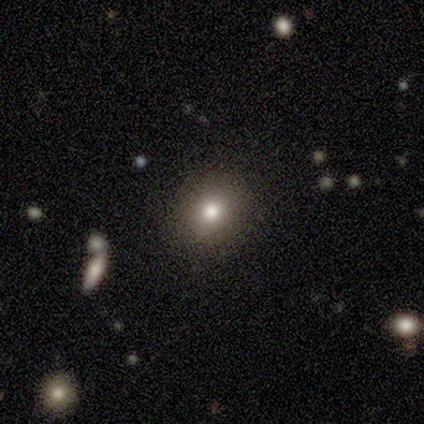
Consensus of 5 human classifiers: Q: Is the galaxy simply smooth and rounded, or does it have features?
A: smooth — 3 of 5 (60%).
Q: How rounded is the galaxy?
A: in between — 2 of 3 (67%).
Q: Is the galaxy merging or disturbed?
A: none — 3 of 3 (100%).